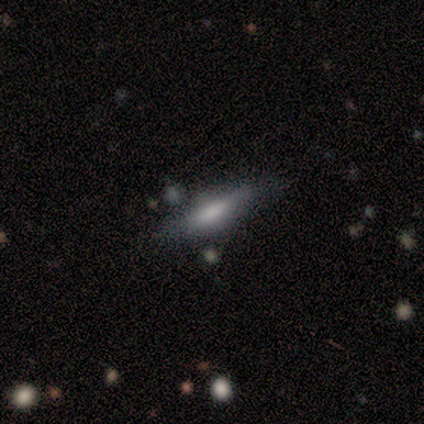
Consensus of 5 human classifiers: This is likely a smooth galaxy (60%). How rounded: likely cigar-shaped (67%). Merging: clearly none (80%).